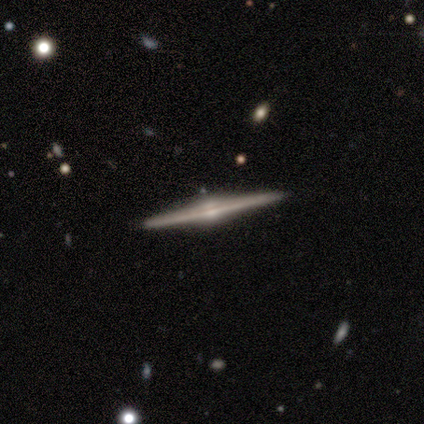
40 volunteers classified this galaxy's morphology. This is clearly a featured or disk galaxy (85%). It is clearly viewed edge-on (100%). Edge-on bulge: clearly rounded (91%). Merging: clearly none (92%).